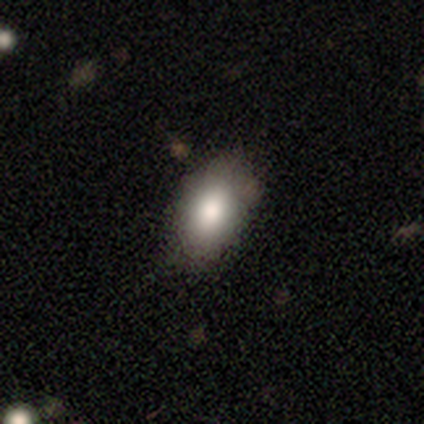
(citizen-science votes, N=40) Overall: smooth (85%). How rounded: in between (94%). Merging: none (45%; minor disturbance 10%).